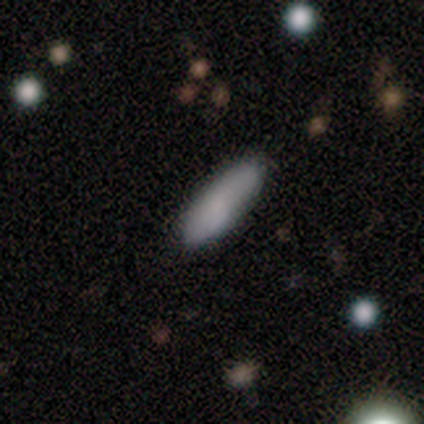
Overall: smooth (83%). How rounded: in between (90%). Merging: none (83%).